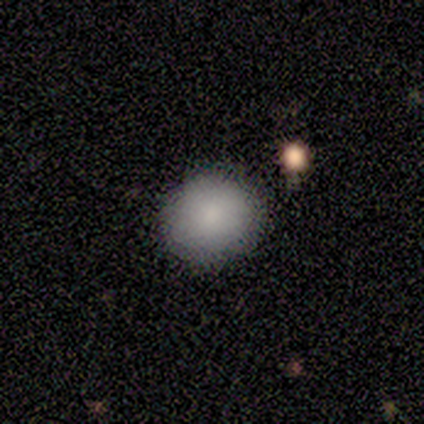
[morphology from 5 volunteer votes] Overall: smooth (80%). How rounded: round (100%). Merging: none (60%; minor disturbance 40%).